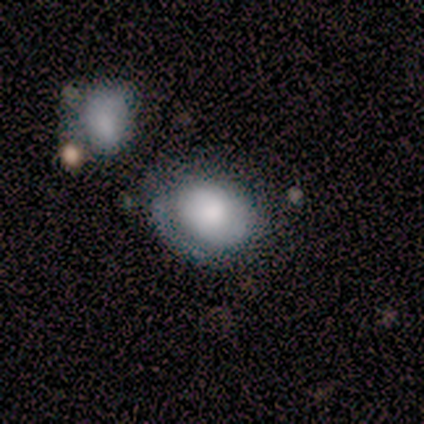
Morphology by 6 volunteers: A smooth galaxy with no disk features (67%) that is in between round and cigar-shaped (75%). Merging: none (50%).